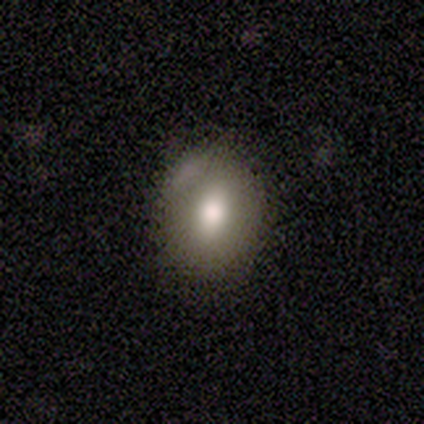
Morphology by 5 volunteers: smooth_or_featured: smooth (p=0.60) [alt: featured or disk p=0.40]
how_rounded: round (p=1.00)
merging: none (p=0.80) [alt: minor disturbance p=0.20]